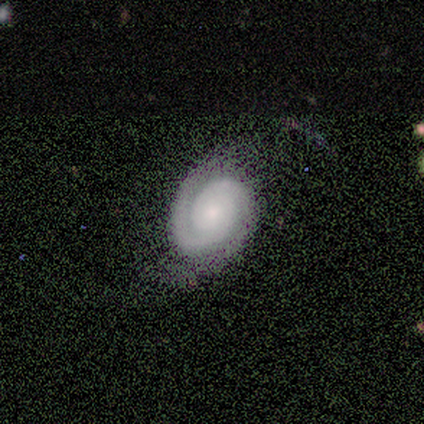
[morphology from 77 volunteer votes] This appears to be a featured or disk galaxy (90%) with no bar (87%), 2 (87%) tight (76%) spiral arms (99%) and a small central bulge (48%). Merging: none (66%).